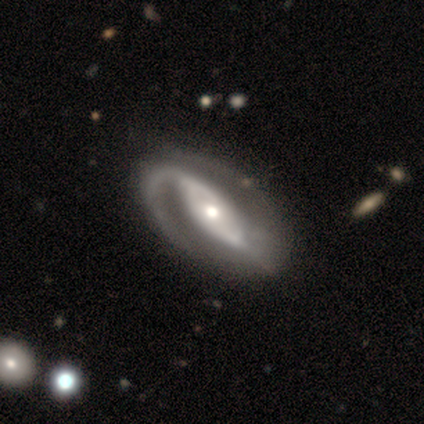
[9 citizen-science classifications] This is clearly a featured or disk galaxy (89%). It is likely not viewed edge-on (75%). Bar: possibly no (50%). Spiral arm pattern: clearly yes (100%). Spiral arm count: clearly 2 (100%). Spiral winding: possibly tight (50%). Central bulge: clearly moderate (100%). Merging: likely none (62%).